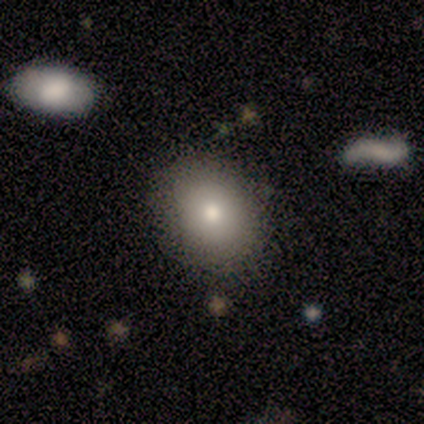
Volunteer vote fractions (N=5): Smooth or featured? smooth (100%)
How rounded? round (60%)
Merging? none (60%)